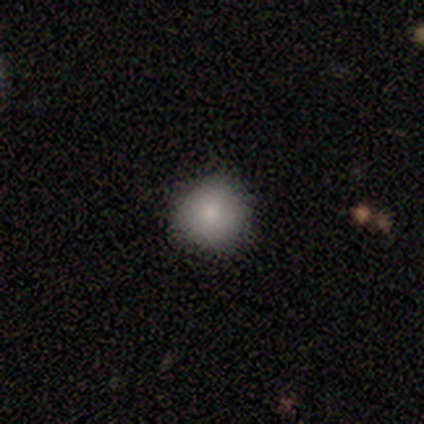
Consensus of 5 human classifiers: smooth-or-featured: smooth: 80% | featured or disk: 20% | star or artifact: 0%
  how-rounded: round: 100% | in between: 0% | cigar-shaped: 0%
  merging: none: 100% | minor disturbance: 0% | major disturbance: 0% | merger: 0%